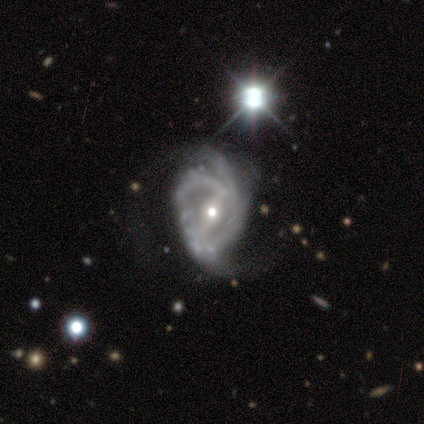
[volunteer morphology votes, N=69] Smooth or featured?
  - featured or disk: 91% *
  - star or artifact: 9%
  - smooth: 0%
Edge-on disk?
  - no: 98% *
  - yes: 2%
Bar?
  - strong: 60% *
  - weak: 26%
  - no: 15%
Spiral arms?
  - yes: 95% *
  - no: 5%
Spiral winding?
  - medium: 39% *
  - tight: 37%
  - loose: 24%
Spiral arm count?
  - 2: 83% *
  - 3: 10%
  - can't tell: 7%
  - 1: 0%
  - 4: 0%
  - more than 4: 0%
Bulge size?
  - moderate: 60% *
  - small: 39%
  - large: 2%
  - dominant: 0%
  - none: 0%
Merging?
  - major disturbance: 37% *
  - minor disturbance: 16%
  - none: 14%
  - merger: 2%